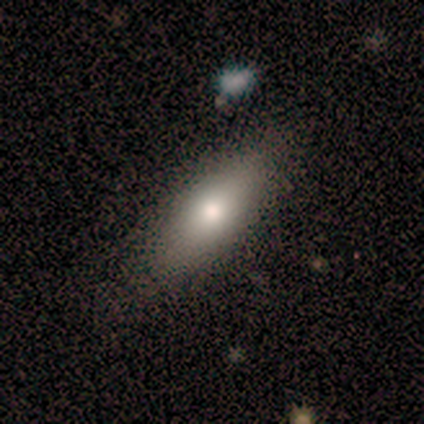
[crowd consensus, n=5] Smooth or featured? 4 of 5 (80%) said smooth. How rounded? 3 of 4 (75%) said in between. Merging? 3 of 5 (60%) said none.